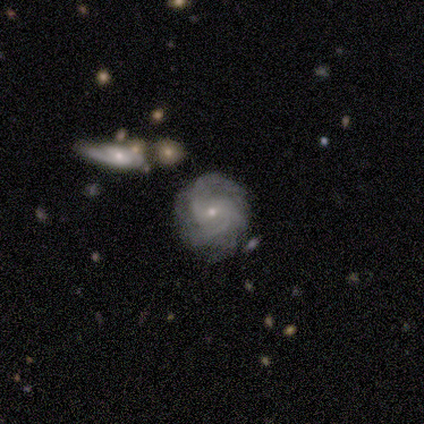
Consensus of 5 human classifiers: Smooth or featured?
  - featured or disk: 80% *
  - star or artifact: 20%
  - smooth: 0%
Edge-on disk?
  - no: 100% *
  - yes: 0%
Bar?
  - no: 75% *
  - weak: 25%
  - strong: 0%
Spiral arms?
  - yes: 75% *
  - no: 25%
Spiral winding?
  - medium: 67% *
  - tight: 33%
  - loose: 0%
Spiral arm count?
  - 2: 33% * (tied)
  - 3: 33% * (tied)
  - can't tell: 33% * (tied)
  - 1: 0%
  - 4: 0%
  - more than 4: 0%
Bulge size?
  - small: 100% *
  - dominant: 0%
  - large: 0%
  - moderate: 0%
  - none: 0%
Merging?
  - none: 75% *
  - minor disturbance: 25%
  - major disturbance: 0%
  - merger: 0%